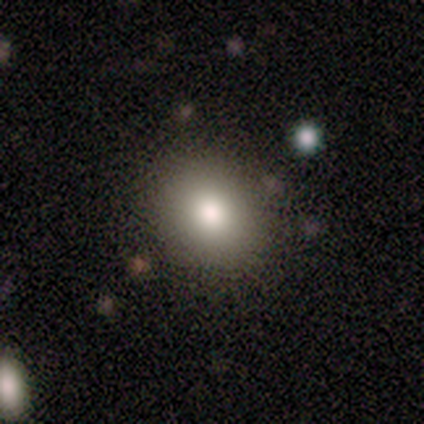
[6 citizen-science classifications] smooth_or_featured: smooth (p=0.67) [alt: featured or disk p=0.33]
how_rounded: round (p=0.50) [tied with: in between p=0.50]
merging: none (p=1.00)